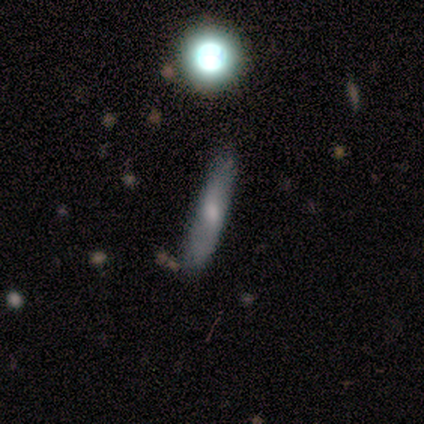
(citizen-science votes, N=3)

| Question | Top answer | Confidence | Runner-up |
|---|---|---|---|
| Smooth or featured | featured or disk | 67% | smooth (33%) |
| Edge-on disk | yes | 100% | — |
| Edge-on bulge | none | 100% | — |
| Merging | none | 67% | minor disturbance (33%) |